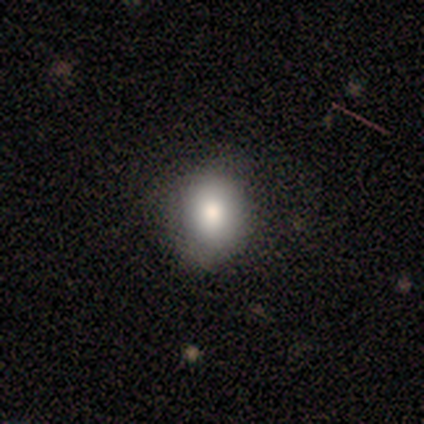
Smooth or featured?
  - smooth: 88% *
  - star or artifact: 12%
  - featured or disk: 0%
How rounded?
  - round: 86% *
  - in between: 14%
  - cigar-shaped: 0%
Merging?
  - none: 86% *
  - minor disturbance: 14%
  - major disturbance: 0%
  - merger: 0%